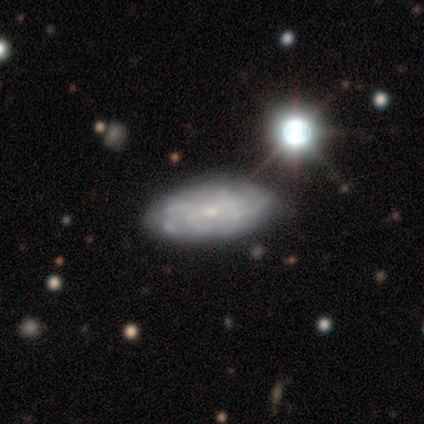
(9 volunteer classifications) smooth_or_featured: featured or disk (p=0.78) [alt: smooth p=0.11]
disk_edge_on: no (p=1.00)
bar: no (p=0.71) [alt: weak p=0.29]
has_spiral_arms: yes (p=0.86) [alt: no p=0.14]
spiral_winding: medium (p=0.83) [alt: tight p=0.17]
spiral_arm_count: 4 (p=0.50) [alt: 3 p=0.17]
bulge_size: small (p=0.71) [alt: moderate p=0.29]
merging: none (p=0.62) [alt: minor disturbance p=0.38]